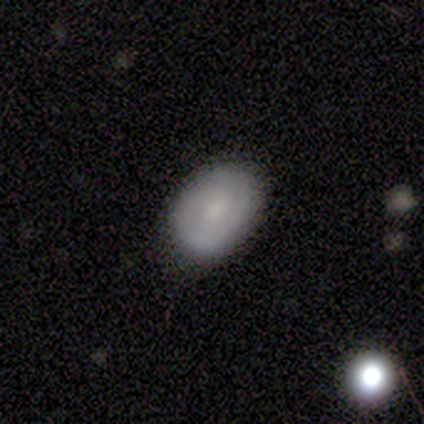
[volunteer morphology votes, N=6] Smooth or featured? smooth (50%, tied with featured or disk)
How rounded? in between (67%)
Merging? none (50%, tied with minor disturbance)